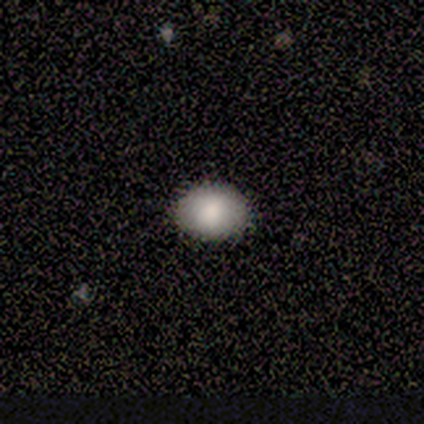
smooth_or_featured: smooth (p=0.75) [alt: star or artifact p=0.25]
how_rounded: round (p=0.67) [alt: in between p=0.33]
merging: none (p=1.00)